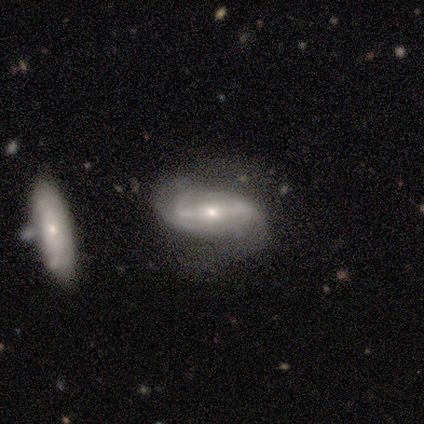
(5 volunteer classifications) A featured or disk galaxy (100%) with a strong bar (60%), 2 (100%) tight (50%) spiral arms (80%) and a moderate central bulge (60%). Merging: none (80%).